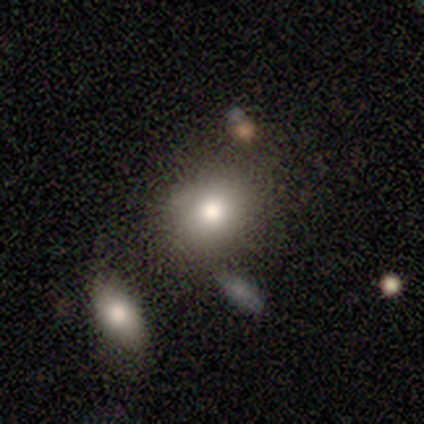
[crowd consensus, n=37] Smooth or featured?
  - smooth: 78% *
  - featured or disk: 14%
  - star or artifact: 8%
How rounded?
  - round: 66% *
  - in between: 34%
  - cigar-shaped: 0%
Merging?
  - none: 74% *
  - minor disturbance: 12%
  - merger: 9%
  - major disturbance: 6%